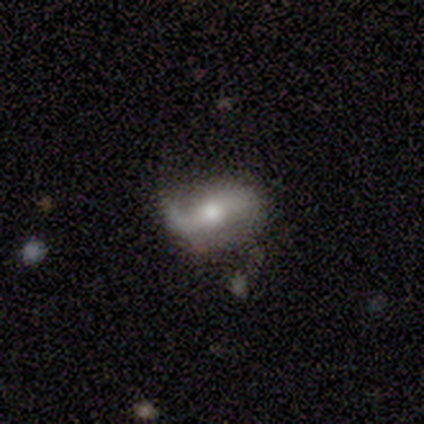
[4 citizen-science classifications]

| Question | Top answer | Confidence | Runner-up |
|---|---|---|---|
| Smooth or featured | featured or disk | 75% | smooth (25%) |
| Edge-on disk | no | 100% | — |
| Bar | no | 67% | weak (33%) |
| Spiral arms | yes | 100% | — |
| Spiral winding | loose | 67% | medium (33%) |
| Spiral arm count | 1 | 67% | 2 (33%) |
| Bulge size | moderate | 67% | small (33%) |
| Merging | none | 50% | minor disturbance (25%) |